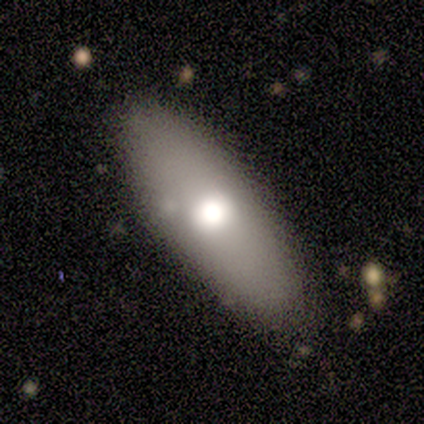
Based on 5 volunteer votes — Morphology: type=smooth (60%); roundness=in between (100%); merging=none (100%).